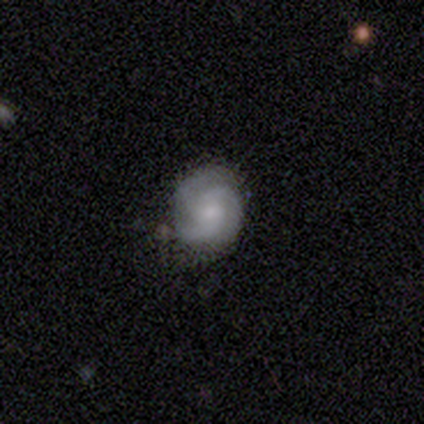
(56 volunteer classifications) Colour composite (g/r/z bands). It shows a featured or disk galaxy (80%) with no bar (57%), 3 (80%) medium (46%) spiral arms (93%) and a small central bulge (48%). Merging: none (70%).